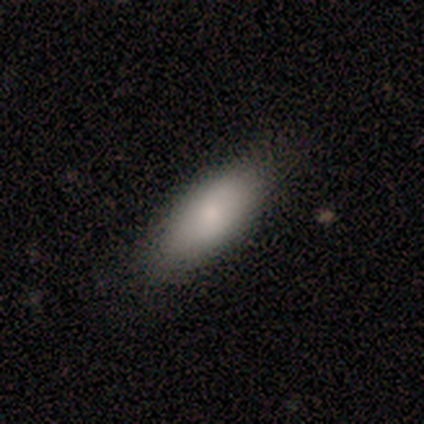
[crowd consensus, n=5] Overall: smooth (60%; featured or disk 20%). How rounded: in between (100%). Merging: none (75%).